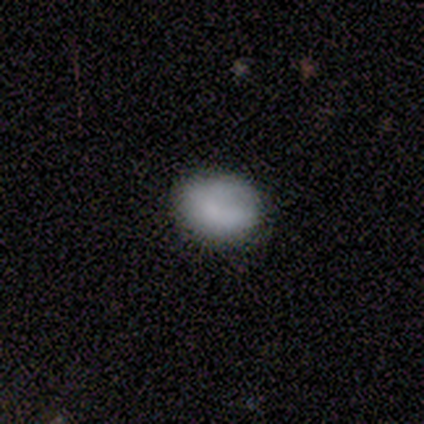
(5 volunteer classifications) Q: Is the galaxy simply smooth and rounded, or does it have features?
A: smooth — 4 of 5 (80%).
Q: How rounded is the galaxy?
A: in between — 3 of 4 (75%).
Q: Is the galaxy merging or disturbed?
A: none — 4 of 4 (100%).